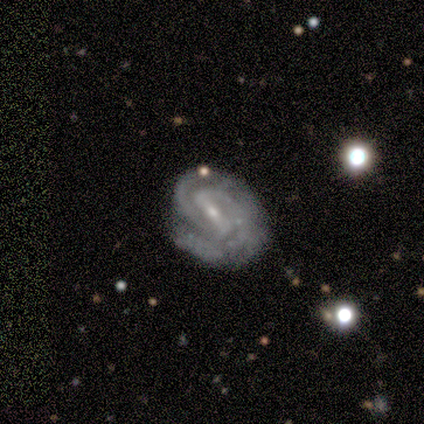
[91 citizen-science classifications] smooth_or_featured: featured or disk (p=0.88) [alt: smooth p=0.07]
disk_edge_on: no (p=1.00)
bar: strong (p=0.57) [alt: weak p=0.33]
has_spiral_arms: yes (p=0.97) [alt: no p=0.03]
spiral_winding: tight (p=0.69) [alt: medium p=0.26]
spiral_arm_count: 2 (p=0.62) [alt: 3 p=0.18]
bulge_size: small (p=0.71) [alt: moderate p=0.26]
merging: none (p=0.57) [alt: minor disturbance p=0.30]